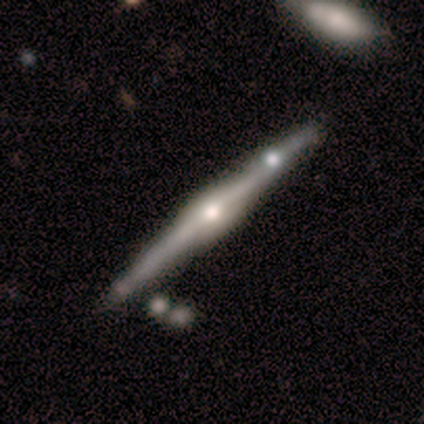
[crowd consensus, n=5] smooth_or_featured: featured or disk (p=0.60) [alt: smooth p=0.40]
disk_edge_on: yes (p=1.00)
edge_on_bulge: rounded (p=1.00)
merging: none (p=1.00)